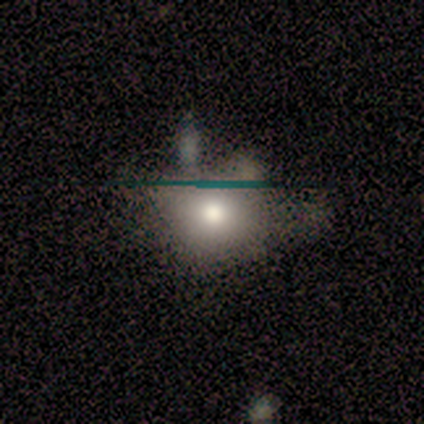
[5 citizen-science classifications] smooth_or_featured: smooth (p=0.40) [tied with: star or artifact p=0.40]
how_rounded: round (p=0.50) [tied with: in between p=0.50]
merging: none (p=0.33) [tied with: minor disturbance p=0.33, major disturbance p=0.33]